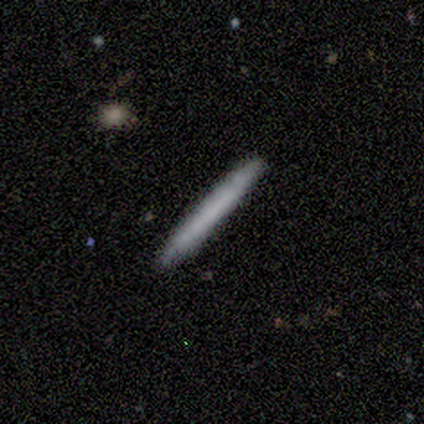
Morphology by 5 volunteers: smooth 100%, featured or disk 0%, star or artifact 0%. Down the decision tree: how rounded — cigar-shaped (100%); merging — none (100%).